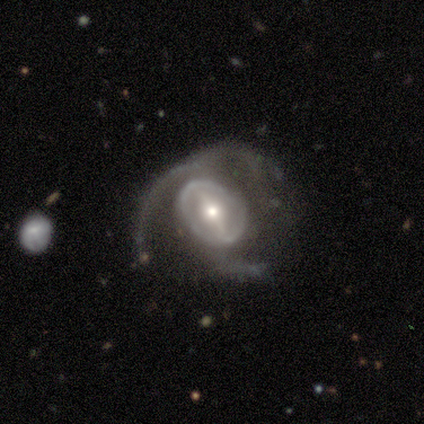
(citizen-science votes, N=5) This appears to be a featured or disk galaxy (80%) with a strong bar (50%, tied with weak), no spiral arms (75%) and a moderate central bulge (75%). Merging: major disturbance (60%).